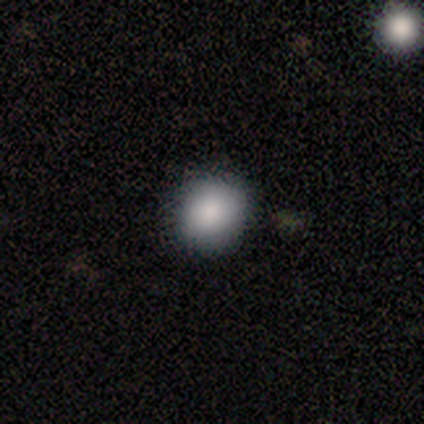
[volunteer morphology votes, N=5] smooth 80%, featured or disk 20%, star or artifact 0%. Down the decision tree: how rounded — round (75%); merging — none (100%).